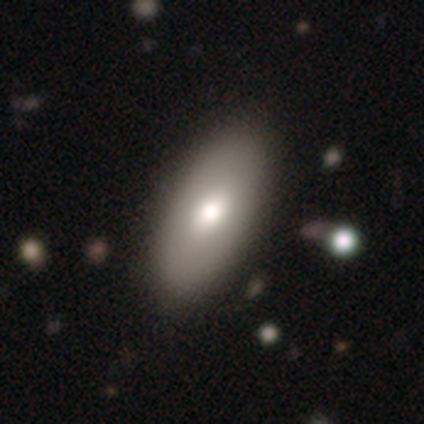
smooth_or_featured: smooth (p=0.67) [alt: star or artifact p=0.33]
how_rounded: in between (p=1.00)
merging: none (p=1.00)